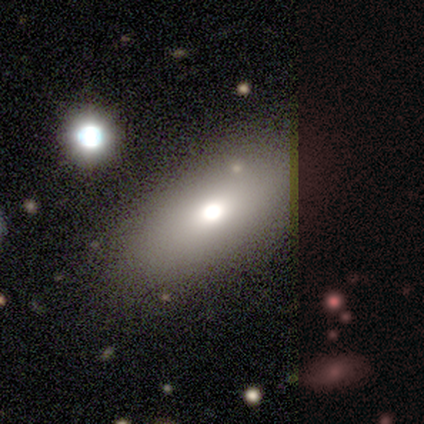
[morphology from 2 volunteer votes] smooth-or-featured: smooth: 100% | featured or disk: 0% | star or artifact: 0%
  how-rounded: in between: 100% | round: 0% | cigar-shaped: 0%
  merging: none: 50% (tied) | minor disturbance: 50% (tied) | major disturbance: 0% | merger: 0%